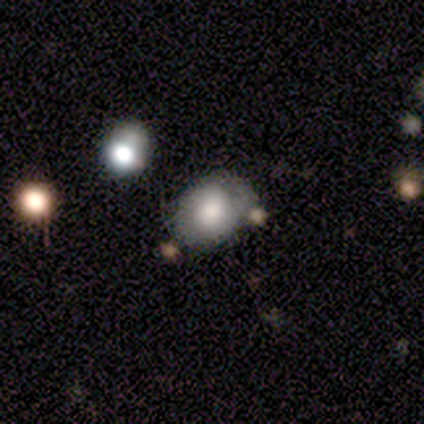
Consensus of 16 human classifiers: Smooth or featured? 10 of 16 (62%) said smooth. How rounded? 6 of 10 (60%) said in between. Merging? 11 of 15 (73%) said none.